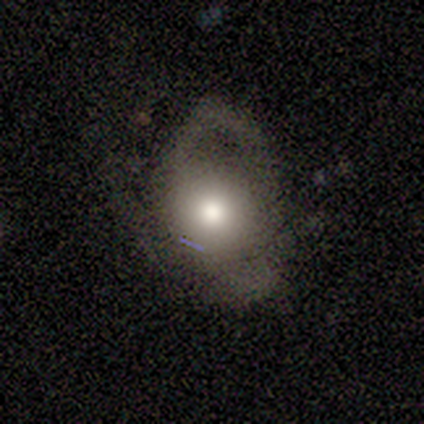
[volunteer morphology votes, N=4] Smooth or featured?
  - smooth: 50% * (tied)
  - featured or disk: 50% * (tied)
  - star or artifact: 0%
How rounded?
  - round: 100% *
  - in between: 0%
  - cigar-shaped: 0%
Merging?
  - major disturbance: 75% *
  - minor disturbance: 25%
  - none: 0%
  - merger: 0%